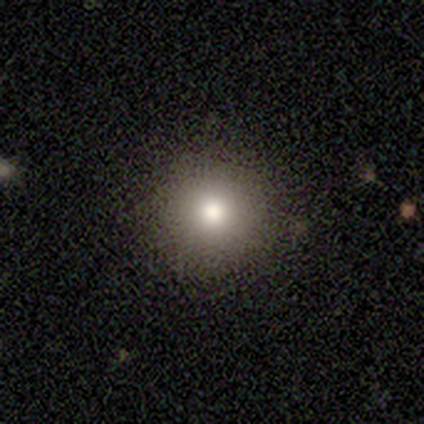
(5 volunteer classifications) Q: Smooth or featured?
A: smooth (60%); runner-up: featured or disk (20%)
Q: How rounded?
A: round (100%)
Q: Merging?
A: none (100%)